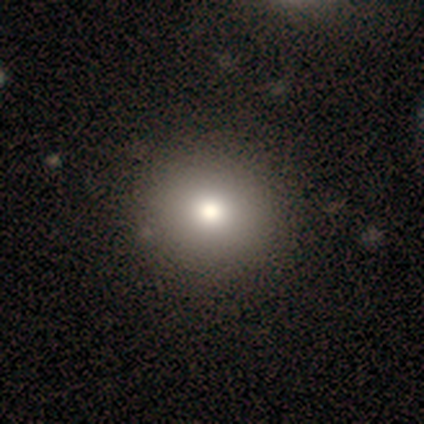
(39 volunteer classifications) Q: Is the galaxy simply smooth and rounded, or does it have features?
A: smooth — 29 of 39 (74%).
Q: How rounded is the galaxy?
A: round — 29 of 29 (100%).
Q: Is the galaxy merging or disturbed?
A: none — 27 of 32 (84%).